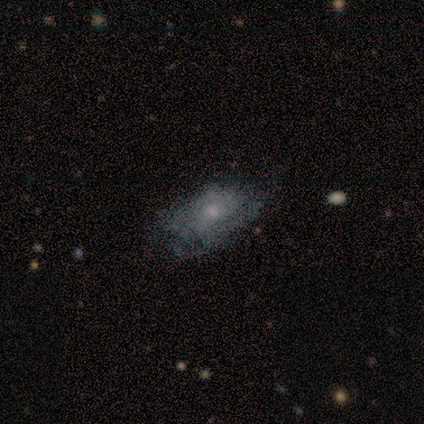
featured or disk 60%, smooth 40%, star or artifact 0%. Down the decision tree: edge-on disk — no (67%); bar — no (100%); spiral arms — yes (100%); spiral arm count — 3 (50%, tied with 4); spiral winding — tight (50%, tied with medium); bulge size — small (100%); merging — none (40%, tied with minor disturbance).